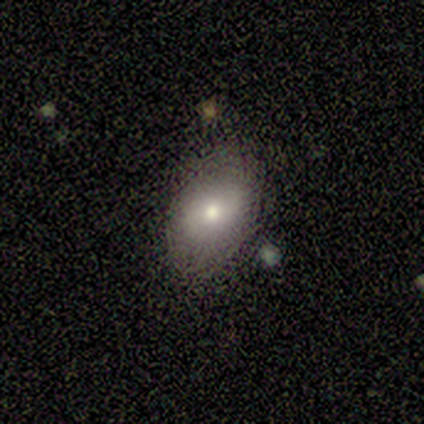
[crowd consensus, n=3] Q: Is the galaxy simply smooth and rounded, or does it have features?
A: smooth — 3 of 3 (100%).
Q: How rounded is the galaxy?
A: in between — 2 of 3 (67%).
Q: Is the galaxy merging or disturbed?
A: none — 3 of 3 (100%).